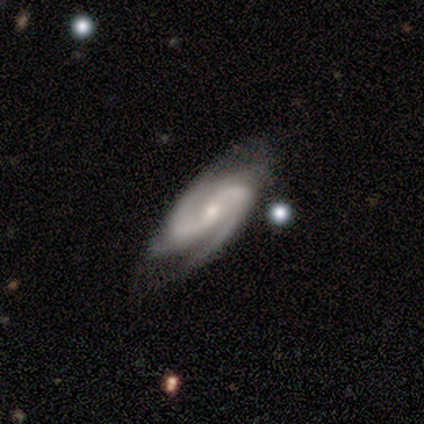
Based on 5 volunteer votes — Q: Smooth or featured?
A: featured or disk (100%)
Q: Edge-on disk?
A: no (100%)
Q: Bar?
A: weak (60%); runner-up: no (40%)
Q: Spiral arms?
A: yes (100%)
Q: Spiral winding?
A: loose (60%); runner-up: tight (20%)
Q: Spiral arm count?
A: 2 (100%)
Q: Bulge size?
A: moderate (60%); runner-up: small (40%)
Q: Merging?
A: none (80%); runner-up: minor disturbance (20%)